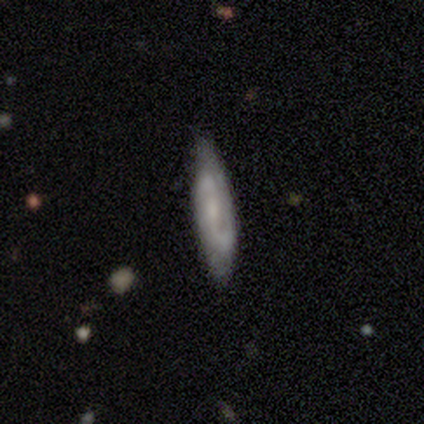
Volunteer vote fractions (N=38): This is likely a featured or disk galaxy (71%). It is likely not viewed edge-on (70%). Bar: possibly weak (53%). Spiral arm pattern: clearly yes (95%). Spiral arm count: clearly 2 (83%). Spiral winding: marginally medium (39%, tied with loose). Central bulge: likely small (63%). Merging: likely none (71%).